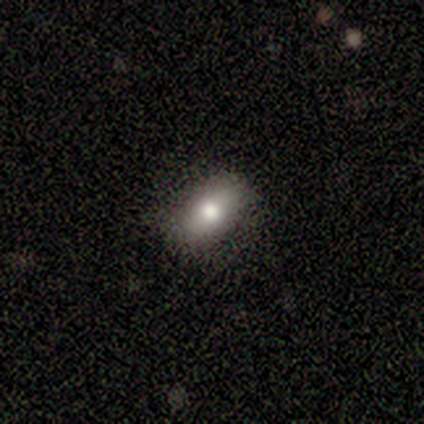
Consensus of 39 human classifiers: Volunteers were most divided on "how rounded": in between: 72%, cigar-shaped: 16%, round: 12%. More confident: merging — none (97%); smooth or featured — smooth (82%).